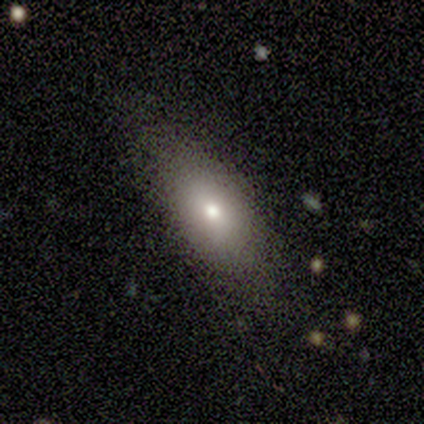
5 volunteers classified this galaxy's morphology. Q: Smooth or featured?
A: smooth (80%); runner-up: featured or disk (20%)
Q: How rounded?
A: in between (75%); runner-up: cigar-shaped (25%)
Q: Merging?
A: none (60%); runner-up: minor disturbance (40%)